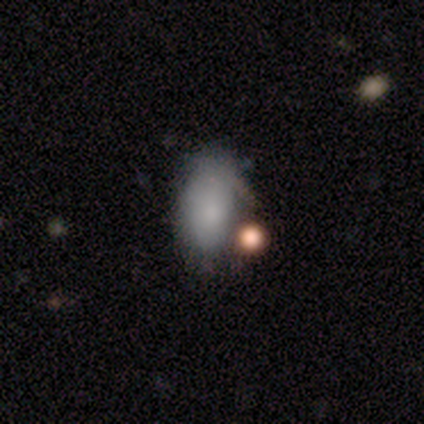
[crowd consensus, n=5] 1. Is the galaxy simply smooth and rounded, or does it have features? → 80% smooth, 20% featured or disk, 0% star or artifact.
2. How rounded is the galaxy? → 100% in between, 0% round, 0% cigar-shaped.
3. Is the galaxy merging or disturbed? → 40% minor disturbance (tied), 40% merger (tied), 20% none, 0% major disturbance.